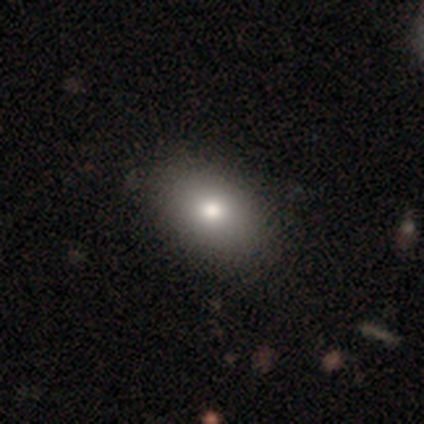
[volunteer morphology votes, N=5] Overall: smooth (80%). How rounded: in between (100%). Merging: none (50%; major disturbance 25%).